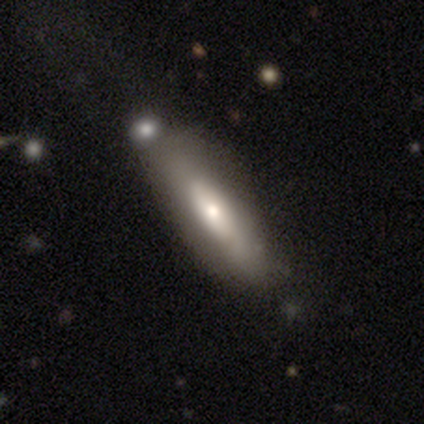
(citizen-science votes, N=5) Smooth or featured: smooth — 100%
How rounded: cigar-shaped — 80% (in between — 20%)
Merging: none — 80% (merger — 20%)